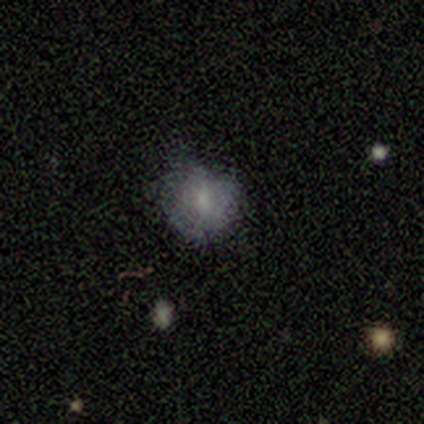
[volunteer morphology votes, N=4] This appears to be a smooth galaxy with no disk features (100%) that is round (75%). Merging: none (100%).